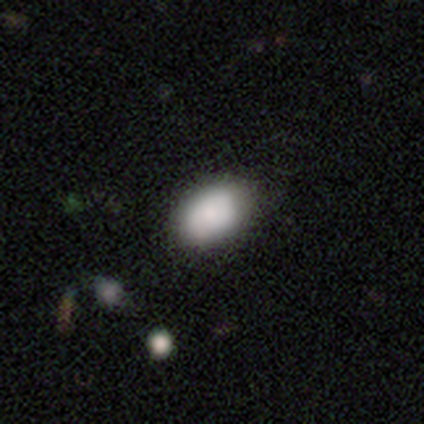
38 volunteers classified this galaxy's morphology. Smooth or featured? 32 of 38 (84%) said smooth. How rounded? 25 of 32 (78%) said in between. Merging? 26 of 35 (74%) said none.